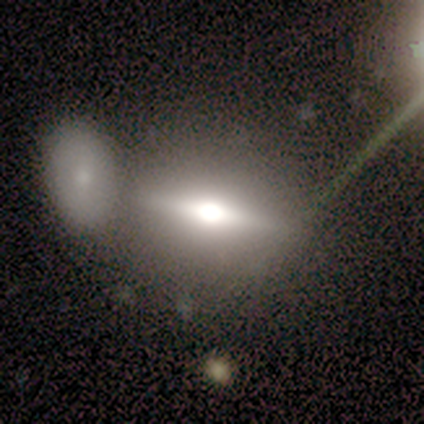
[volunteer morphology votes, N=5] This is marginally a smooth galaxy (40%, tied with featured or disk). How rounded: clearly in between (100%). Merging: possibly none (50%, tied with merger).